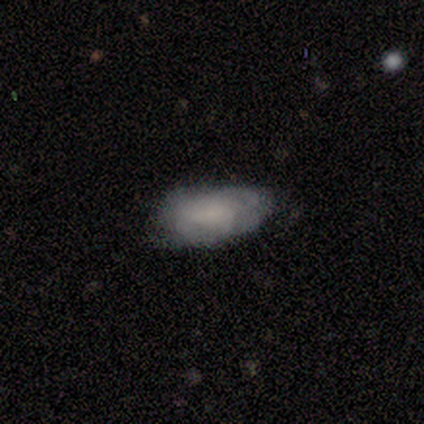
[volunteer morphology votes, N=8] This is possibly a featured or disk galaxy (50%). It is clearly not viewed edge-on (100%). Bar: possibly no (50%). Spiral arm pattern: likely no (75%). Central bulge: likely moderate (75%). Merging: marginally none (43%, tied with minor disturbance).